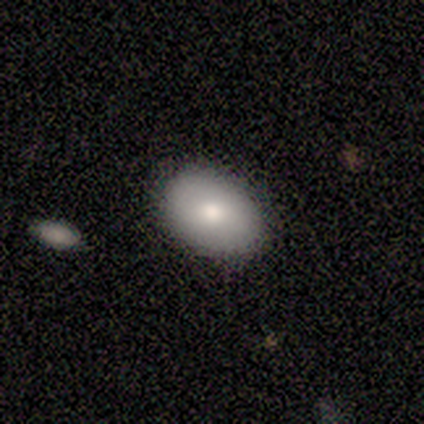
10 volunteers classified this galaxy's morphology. Overall: smooth (70%). How rounded: in between (71%). Merging: none (100%).